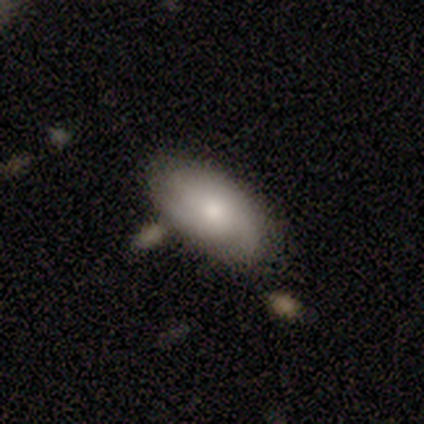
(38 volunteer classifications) A smooth galaxy with no disk features (66%) that is in between round and cigar-shaped (96%). Merging: none (65%).